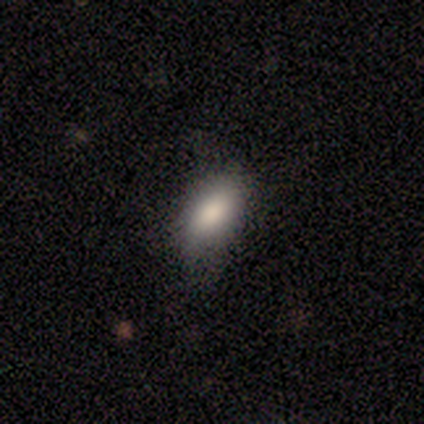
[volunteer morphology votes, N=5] A smooth galaxy with no disk features (80%) that is in between round and cigar-shaped (100%).

Vote fractions:
- Smooth or featured? smooth: 80% / star or artifact: 20% / featured or disk: 0%
- How rounded? in between: 100% / round: 0% / cigar-shaped: 0%
- Merging? minor disturbance: 50% / none: 25% / merger: 25% / major disturbance: 0%